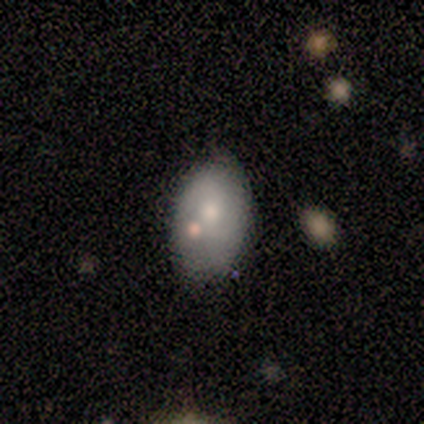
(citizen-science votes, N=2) smooth_or_featured: smooth (p=0.50) [tied with: featured or disk p=0.50]
how_rounded: round (p=1.00)
merging: none (p=1.00)